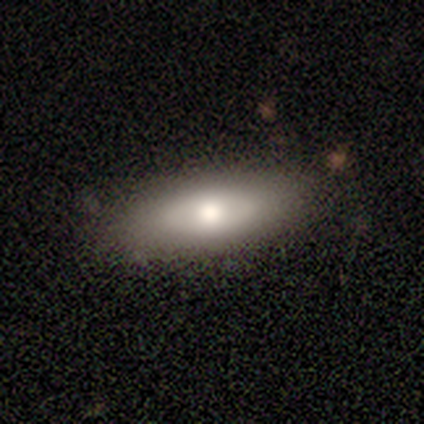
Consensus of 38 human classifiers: Smooth or featured: smooth — 66% (featured or disk — 26%)
How rounded: in between — 56% (cigar-shaped — 44%)
Merging: none — 69% (minor disturbance — 29%)